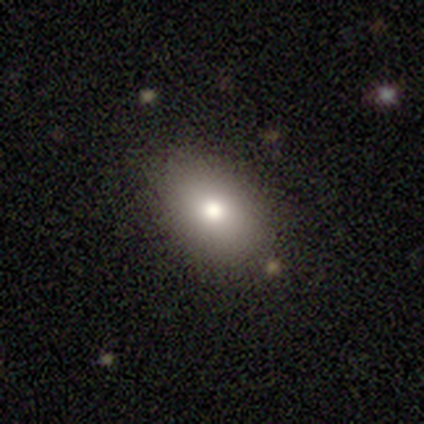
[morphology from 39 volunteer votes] smooth-or-featured: smooth: 77% | featured or disk: 13% | star or artifact: 10%
  how-rounded: in between: 80% | round: 17% | cigar-shaped: 3%
  merging: none: 83% | minor disturbance: 14% | merger: 3% | major disturbance: 0%